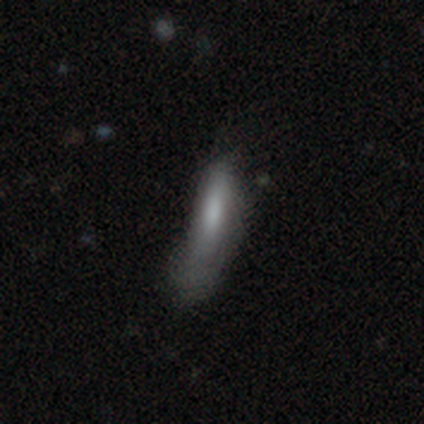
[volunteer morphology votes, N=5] Q: Smooth or featured?
A: smooth (80%); runner-up: featured or disk (20%)
Q: How rounded?
A: in between (50%); tied with: cigar-shaped (50%)
Q: Merging?
A: none (40%); tied with: minor disturbance (40%)